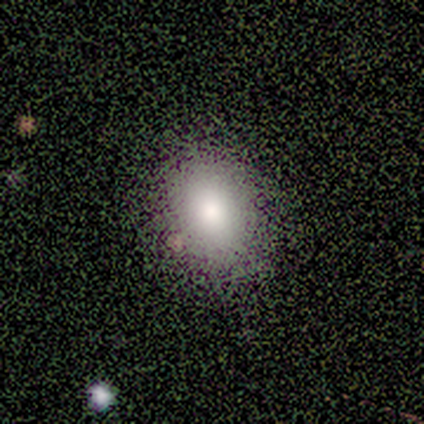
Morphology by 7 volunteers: A smooth galaxy with no disk features (100%) that is in between round and cigar-shaped (57%).

Vote fractions:
- Smooth or featured? smooth: 100% / featured or disk: 0% / star or artifact: 0%
- How rounded? in between: 57% / round: 43% / cigar-shaped: 0%
- Merging? none: 86% / merger: 14% / minor disturbance: 0% / major disturbance: 0%